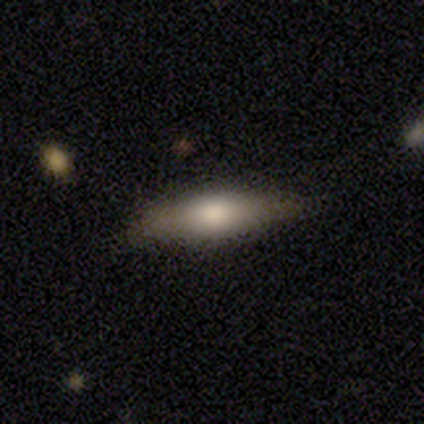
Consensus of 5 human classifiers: Smooth or featured? 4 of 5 (80%) said smooth. How rounded? 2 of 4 (50%, tied with cigar-shaped) said in between. Merging? 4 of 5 (80%) said none.